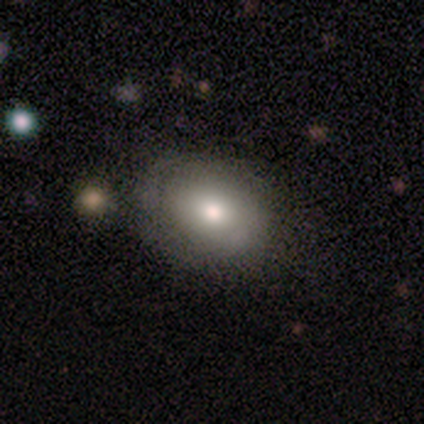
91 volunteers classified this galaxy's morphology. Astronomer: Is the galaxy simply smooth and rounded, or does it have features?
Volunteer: smooth — 75%.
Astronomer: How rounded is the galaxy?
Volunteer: in between — 65%.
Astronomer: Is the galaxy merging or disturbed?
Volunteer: none — 66%.